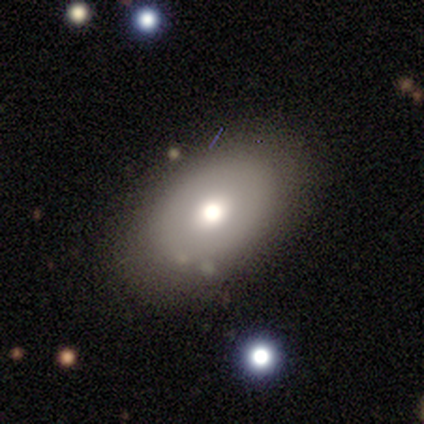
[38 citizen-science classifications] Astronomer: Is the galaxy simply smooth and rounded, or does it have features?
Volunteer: smooth — 79%.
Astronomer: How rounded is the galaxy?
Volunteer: in between — 83%.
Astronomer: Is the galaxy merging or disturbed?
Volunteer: none — 82%.